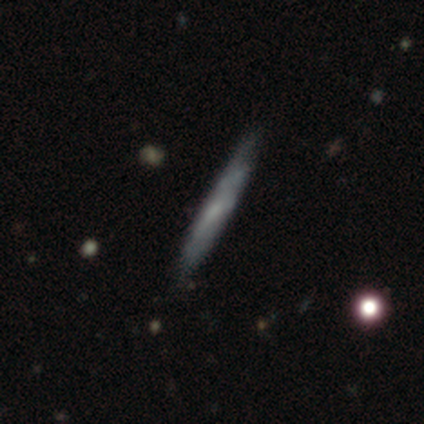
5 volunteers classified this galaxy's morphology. Smooth or featured?
  - smooth: 80% *
  - featured or disk: 20%
  - star or artifact: 0%
How rounded?
  - cigar-shaped: 100% *
  - round: 0%
  - in between: 0%
Merging?
  - none: 60% *
  - minor disturbance: 20%
  - major disturbance: 20%
  - merger: 0%